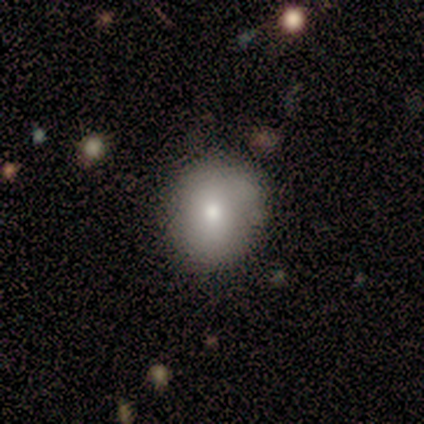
smooth-or-featured: smooth: 100% | featured or disk: 0% | star or artifact: 0%
  how-rounded: round: 83% | in between: 17% | cigar-shaped: 0%
  merging: none: 50% | major disturbance: 33% | minor disturbance: 17% | merger: 0%